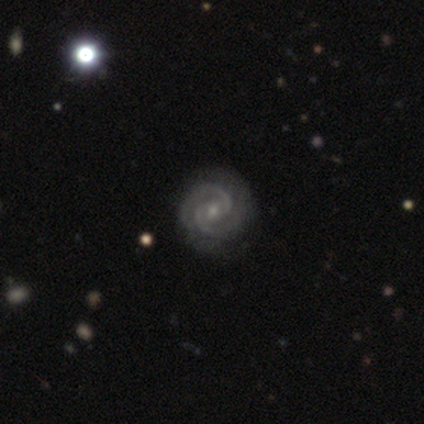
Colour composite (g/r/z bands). It shows a featured or disk galaxy (80%) with a weak bar (50%, tied with no), 2 (100%) tight (100%) spiral arms (100%) and a moderate central bulge (50%, tied with small). Merging: none (50%, tied with minor disturbance).